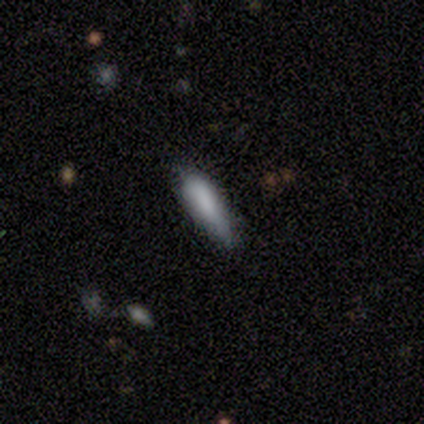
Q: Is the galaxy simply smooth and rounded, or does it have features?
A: smooth — 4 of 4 (100%).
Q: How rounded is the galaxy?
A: in between — 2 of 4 (50%, tied with cigar-shaped).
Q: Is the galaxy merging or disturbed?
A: none — 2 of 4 (50%, tied with minor disturbance).